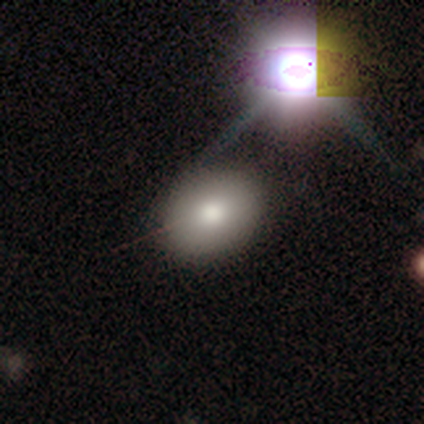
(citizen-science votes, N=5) Smooth or featured?
  - smooth: 80% *
  - star or artifact: 20%
  - featured or disk: 0%
How rounded?
  - round: 75% *
  - in between: 25%
  - cigar-shaped: 0%
Merging?
  - none: 100% *
  - minor disturbance: 0%
  - major disturbance: 0%
  - merger: 0%